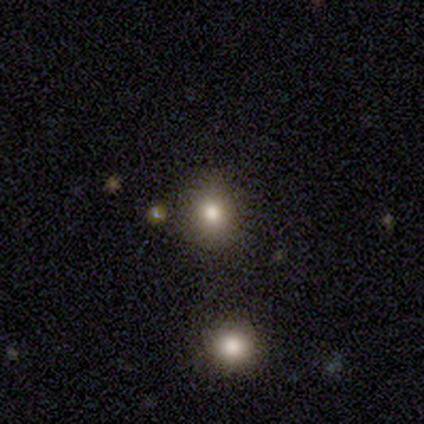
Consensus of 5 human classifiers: Smooth or featured: smooth — 100%
How rounded: round — 80% (in between — 20%)
Merging: none — 80% (merger — 20%)